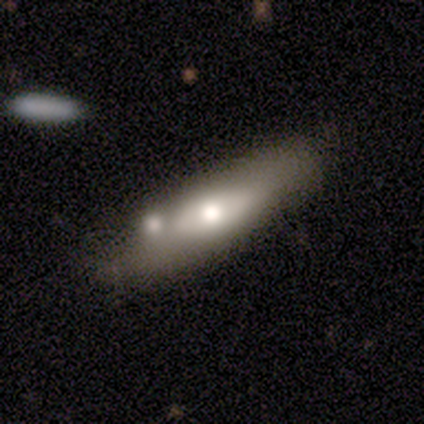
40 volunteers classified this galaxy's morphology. type=smooth (68%); roundness=in between (52%); merging=none (40%).